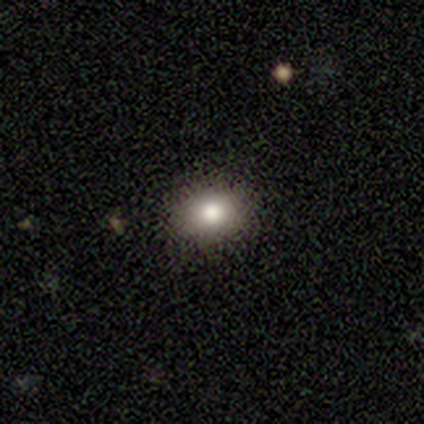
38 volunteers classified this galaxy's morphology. Overall: smooth (68%). How rounded: in between (62%; round 38%). Merging: none (87%).